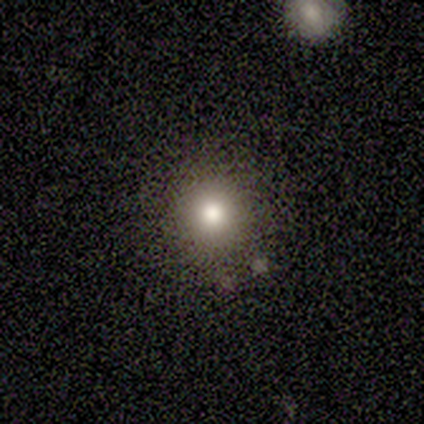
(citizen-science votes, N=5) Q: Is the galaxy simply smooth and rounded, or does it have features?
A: smooth — 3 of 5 (60%).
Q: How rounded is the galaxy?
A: round — 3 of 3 (100%).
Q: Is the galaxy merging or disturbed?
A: none — 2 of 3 (67%).